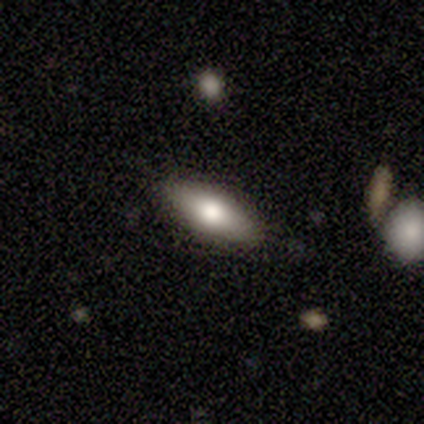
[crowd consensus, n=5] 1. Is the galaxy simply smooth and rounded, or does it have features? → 80% smooth, 20% featured or disk, 0% star or artifact.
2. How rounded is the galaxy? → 100% in between, 0% round, 0% cigar-shaped.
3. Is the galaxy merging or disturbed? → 100% none, 0% minor disturbance, 0% major disturbance, 0% merger.